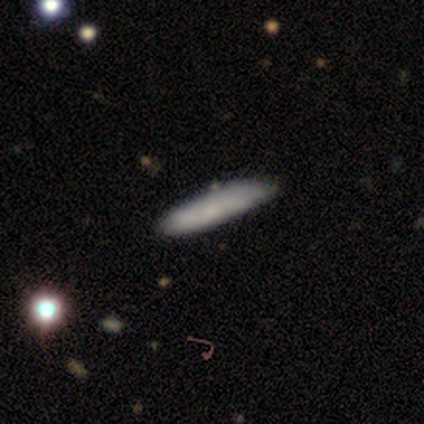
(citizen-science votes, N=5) A smooth galaxy with no disk features (100%) that is cigar-shaped (100%).

Vote fractions:
- Smooth or featured? smooth: 100% / featured or disk: 0% / star or artifact: 0%
- How rounded? cigar-shaped: 100% / round: 0% / in between: 0%
- Merging? none: 100% / minor disturbance: 0% / major disturbance: 0% / merger: 0%